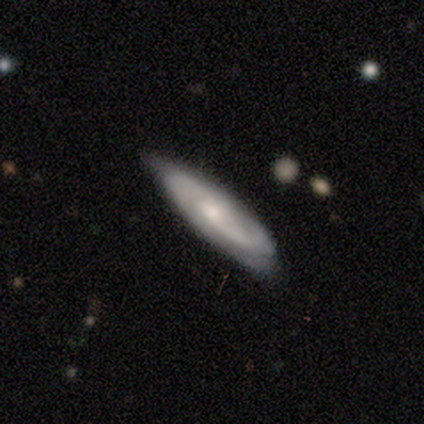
Volunteers were most divided on "spiral winding": medium: 43%, loose: 38%, tight: 19%. More confident: spiral arms — yes (91%); edge-on disk — no (79%); smooth or featured — featured or disk (74%); bar — no (70%); merging — none (65%); bulge size — small (61%); spiral arm count — 2 (57%).